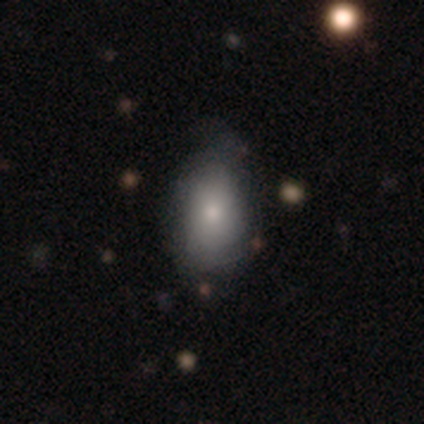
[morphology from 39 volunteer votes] A smooth galaxy with no disk features (69%) that is in between round and cigar-shaped (89%).

Vote fractions:
- Smooth or featured? smooth: 69% / featured or disk: 26% / star or artifact: 5%
- How rounded? in between: 89% / round: 7% / cigar-shaped: 4%
- Merging? none: 59% / minor disturbance: 8% / major disturbance: 3% / merger: 3%